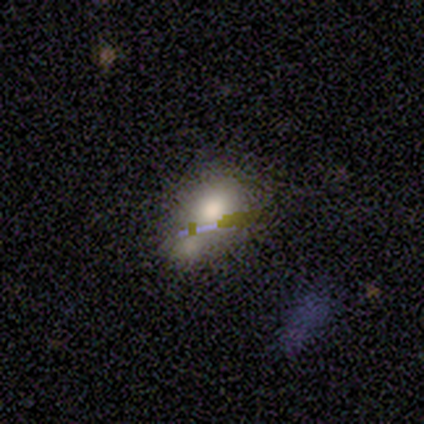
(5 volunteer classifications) A smooth galaxy with no disk features (100%) that is in between round and cigar-shaped (100%).

Vote fractions:
- Smooth or featured? smooth: 100% / featured or disk: 0% / star or artifact: 0%
- How rounded? in between: 100% / round: 0% / cigar-shaped: 0%
- Merging? none: 40% (tied) / major disturbance: 40% (tied) / merger: 20% / minor disturbance: 0%